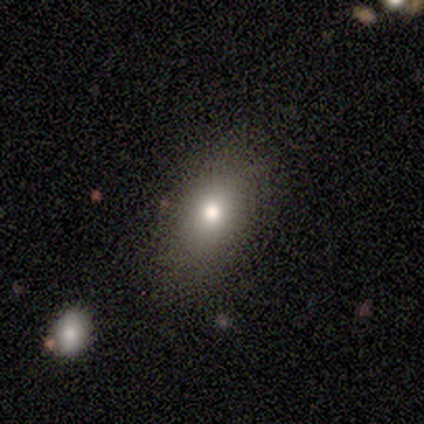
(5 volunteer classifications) smooth 80%, featured or disk 20%, star or artifact 0%. Down the decision tree: how rounded — in between (75%); merging — none (80%).